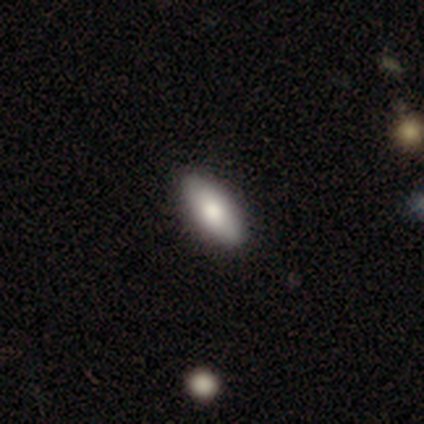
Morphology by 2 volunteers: A smooth galaxy with no disk features (50%, tied with star or artifact) that is in between round and cigar-shaped (100%). Merging: merger (100%).